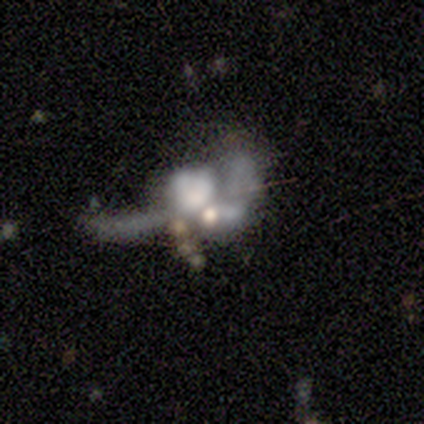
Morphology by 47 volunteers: featured or disk 70%, smooth 19%, star or artifact 11%. Down the decision tree: edge-on disk — no (100%); bar — no (85%); spiral arms — no (76%); bulge size — none (27%); merging — merger (48%).